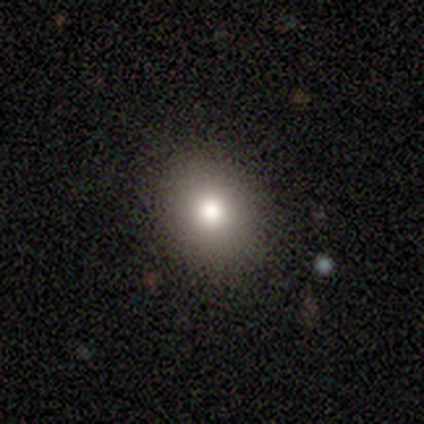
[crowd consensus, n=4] smooth-or-featured: smooth: 75% | star or artifact: 25% | featured or disk: 0%
  how-rounded: round: 67% | in between: 33% | cigar-shaped: 0%
  merging: none: 67% | minor disturbance: 33% | major disturbance: 0% | merger: 0%